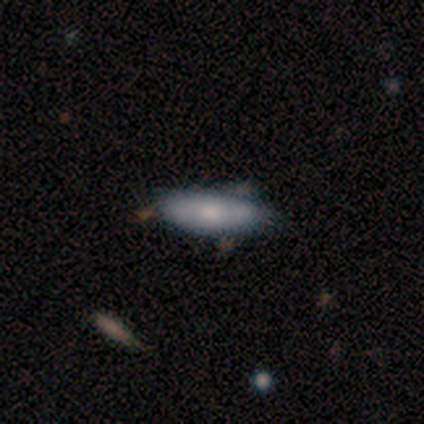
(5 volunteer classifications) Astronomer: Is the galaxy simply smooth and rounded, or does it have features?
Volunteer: featured or disk — 60% (runner-up: smooth, 40%).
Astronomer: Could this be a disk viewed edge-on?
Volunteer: no — 100%.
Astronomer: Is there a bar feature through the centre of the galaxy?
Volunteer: no — 100%.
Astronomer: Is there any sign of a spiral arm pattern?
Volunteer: no — 67%.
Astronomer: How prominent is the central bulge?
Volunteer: moderate — 67%.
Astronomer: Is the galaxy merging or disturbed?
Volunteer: none — 100%.